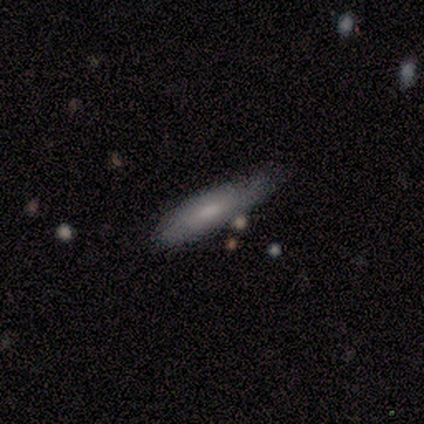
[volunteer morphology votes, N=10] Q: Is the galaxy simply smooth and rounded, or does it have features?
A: smooth — 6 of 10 (60%).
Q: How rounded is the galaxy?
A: cigar-shaped — 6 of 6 (100%).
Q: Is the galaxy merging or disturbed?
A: none — 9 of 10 (90%).